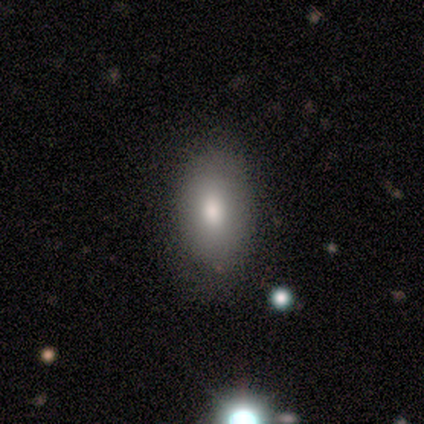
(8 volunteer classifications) Smooth or featured? smooth (100%)
How rounded? in between (100%)
Merging? none (88%)